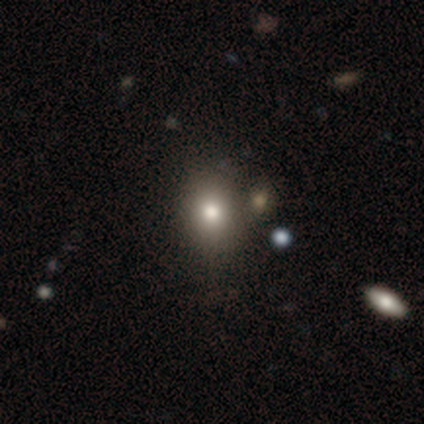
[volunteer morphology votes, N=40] Smooth or featured? 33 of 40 (82%) said smooth. How rounded? 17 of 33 (52%) said round. Merging? 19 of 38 (50%) said none.